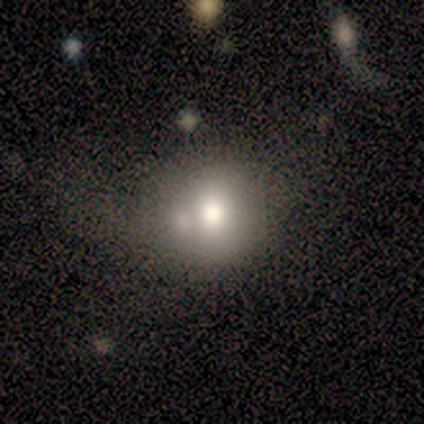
Smooth or featured: featured or disk — 40% (tied with star or artifact — 40%)
Edge-on disk: no — 100%
Bar: no — 100%
Spiral arms: no — 100%
Bulge size: moderate — 100%
Merging: minor disturbance — 67% (merger — 33%)